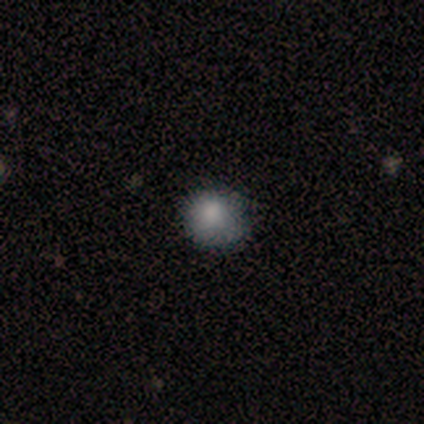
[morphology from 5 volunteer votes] Overall: smooth (100%). How rounded: round (80%). Merging: minor disturbance (60%; none 40%).